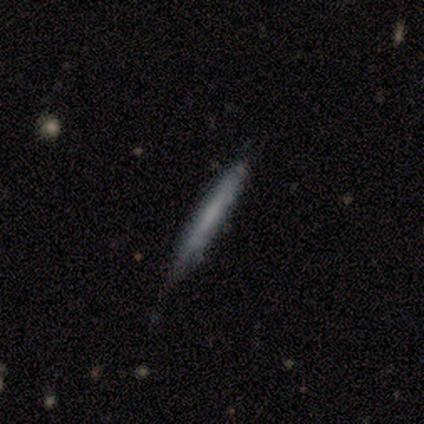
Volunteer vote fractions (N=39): Morphology: type=smooth (56%); roundness=cigar-shaped (100%); merging=none (67%).